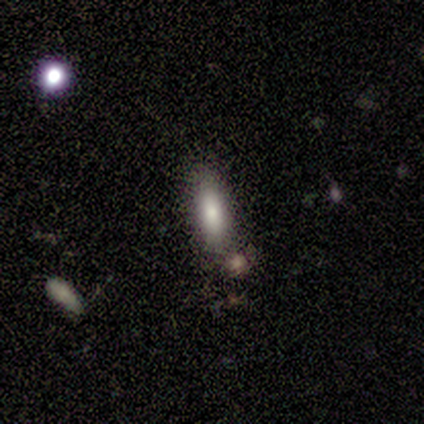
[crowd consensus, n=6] Smooth or featured?
  - smooth: 50% *
  - star or artifact: 33%
  - featured or disk: 17%
How rounded?
  - in between: 67% *
  - cigar-shaped: 33%
  - round: 0%
Merging?
  - none: 100% *
  - minor disturbance: 0%
  - major disturbance: 0%
  - merger: 0%